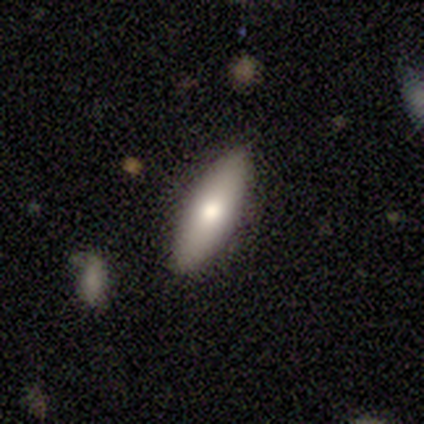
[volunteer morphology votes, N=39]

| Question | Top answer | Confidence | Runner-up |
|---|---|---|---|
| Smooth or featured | smooth | 69% | featured or disk (28%) |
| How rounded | in between | 56% | cigar-shaped (44%) |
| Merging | none | 87% | minor disturbance (8%) |